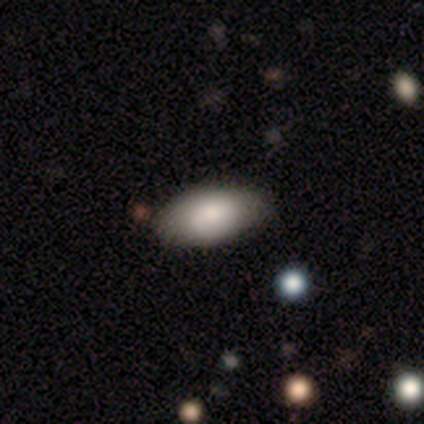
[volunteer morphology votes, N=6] Overall: smooth (50%; star or artifact 33%). How rounded: in between (100%). Merging: none (75%).